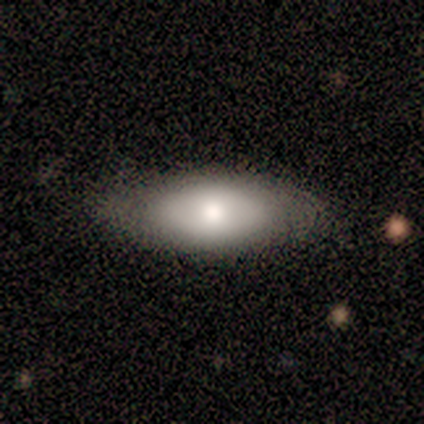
Overall: smooth (100%). How rounded: in between (100%). Merging: none (100%).